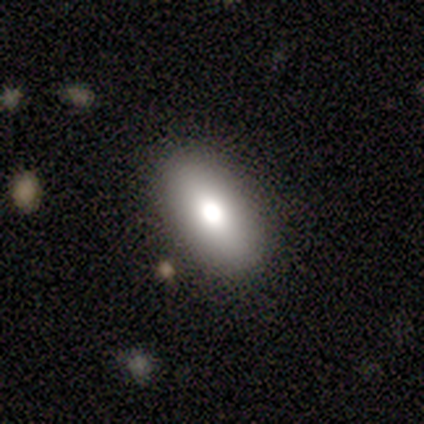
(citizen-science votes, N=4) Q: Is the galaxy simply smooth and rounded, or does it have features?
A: smooth — 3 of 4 (75%).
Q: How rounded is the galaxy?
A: in between — 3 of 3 (100%).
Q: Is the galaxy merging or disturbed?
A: none — 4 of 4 (100%).